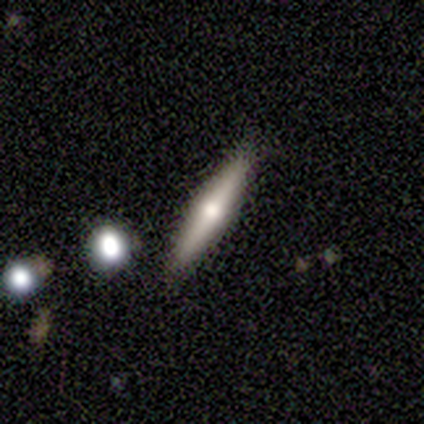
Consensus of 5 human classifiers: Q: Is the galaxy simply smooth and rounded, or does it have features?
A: featured or disk — 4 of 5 (80%).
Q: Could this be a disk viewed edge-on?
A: yes — 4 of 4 (100%).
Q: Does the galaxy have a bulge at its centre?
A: rounded — 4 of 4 (100%).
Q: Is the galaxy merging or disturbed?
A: none — 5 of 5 (100%).